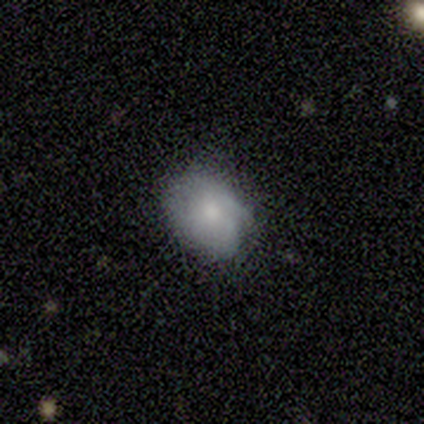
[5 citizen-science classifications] A smooth galaxy with no disk features (60%) that is in between round and cigar-shaped (67%). Merging: none (80%).